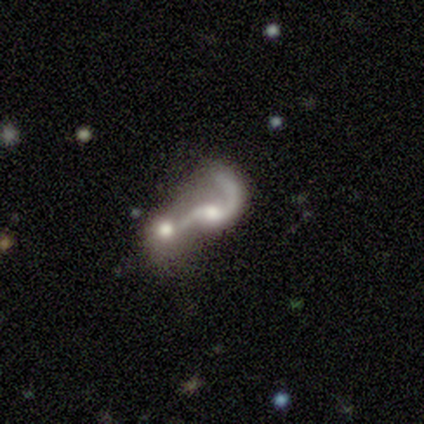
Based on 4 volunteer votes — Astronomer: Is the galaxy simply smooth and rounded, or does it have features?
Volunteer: featured or disk — 100%.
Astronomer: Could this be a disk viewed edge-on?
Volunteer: no — 100%.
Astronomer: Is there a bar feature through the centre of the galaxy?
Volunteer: no — 75%.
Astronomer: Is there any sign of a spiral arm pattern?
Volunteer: yes — 75%.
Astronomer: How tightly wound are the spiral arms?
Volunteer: loose — 100%.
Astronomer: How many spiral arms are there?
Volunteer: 2 — 67%.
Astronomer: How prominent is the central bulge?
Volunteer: moderate — 75%.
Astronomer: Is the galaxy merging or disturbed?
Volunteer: merger — 75%.